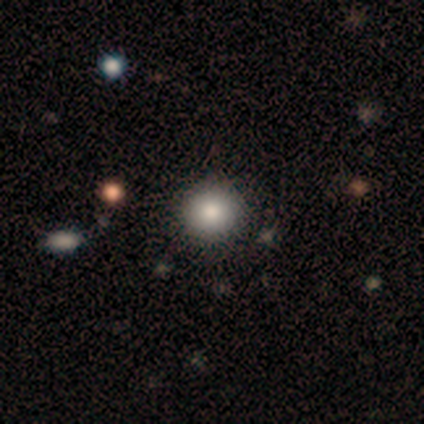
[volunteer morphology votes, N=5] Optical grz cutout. It shows a smooth galaxy with no disk features (100%) that is round (80%). Merging: none (80%).